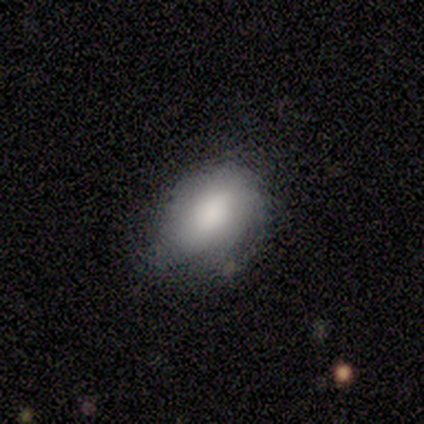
Overall: smooth (80%). How rounded: round (50%, tied with in between). Merging: minor disturbance (100%).